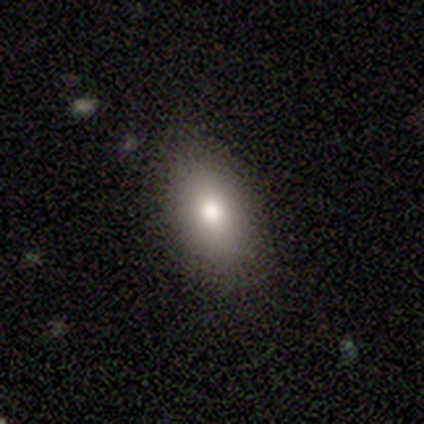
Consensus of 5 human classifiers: smooth-or-featured: smooth: 40% (tied) | star or artifact: 40% (tied) | featured or disk: 20%
  how-rounded: in between: 100% | round: 0% | cigar-shaped: 0%
  merging: none: 33% (tied) | minor disturbance: 33% (tied) | merger: 33% (tied) | major disturbance: 0%